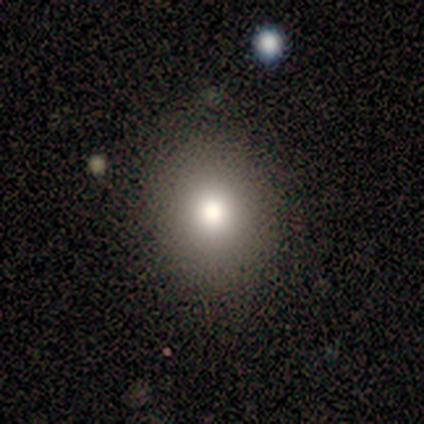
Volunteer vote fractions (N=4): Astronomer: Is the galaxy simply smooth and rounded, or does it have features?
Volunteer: smooth — 50%.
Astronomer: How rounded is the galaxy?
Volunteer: round — 50%, tied with in between at 50%.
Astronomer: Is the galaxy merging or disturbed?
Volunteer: none — 67%.